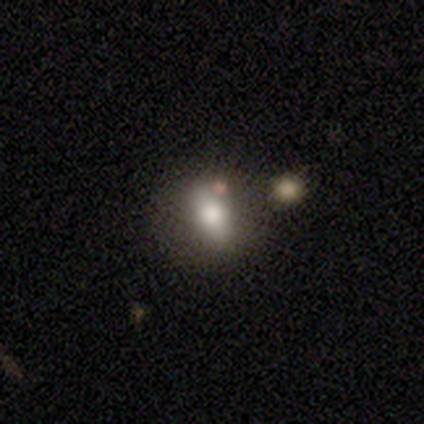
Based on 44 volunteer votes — Smooth or featured?
  - smooth: 59% *
  - featured or disk: 36%
  - star or artifact: 5%
How rounded?
  - in between: 73% *
  - round: 23%
  - cigar-shaped: 4%
Merging?
  - none: 52% *
  - merger: 17%
  - minor disturbance: 2%
  - major disturbance: 0%